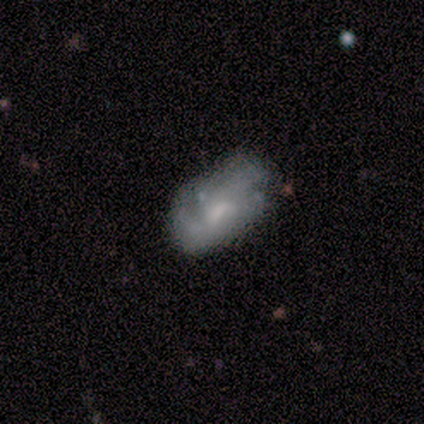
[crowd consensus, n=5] Smooth or featured? 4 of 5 (80%) said smooth. How rounded? 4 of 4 (100%) said in between. Merging? 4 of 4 (100%) said none.